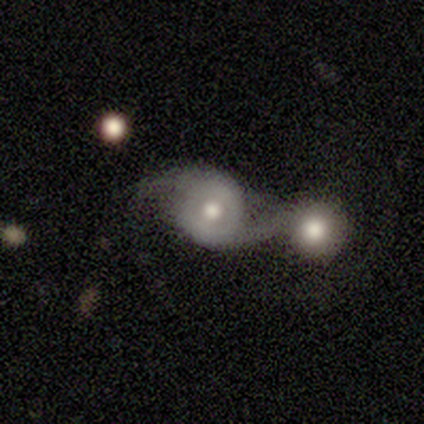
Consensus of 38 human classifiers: Morphology: type=featured or disk (79%); edge-on=no (93%); bar=no (75%); spiral arms=yes (93%); winding=loose (65%); arm count=2 (96%); bulge=moderate (68%); merging=merger (60%).